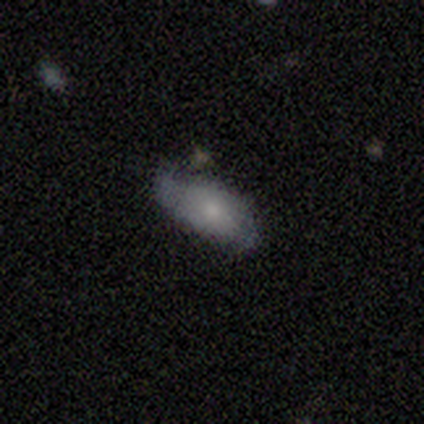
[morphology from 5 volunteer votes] Smooth or featured?
  - smooth: 60% *
  - featured or disk: 20%
  - star or artifact: 20%
How rounded?
  - in between: 100% *
  - round: 0%
  - cigar-shaped: 0%
Merging?
  - none: 75% *
  - minor disturbance: 25%
  - major disturbance: 0%
  - merger: 0%